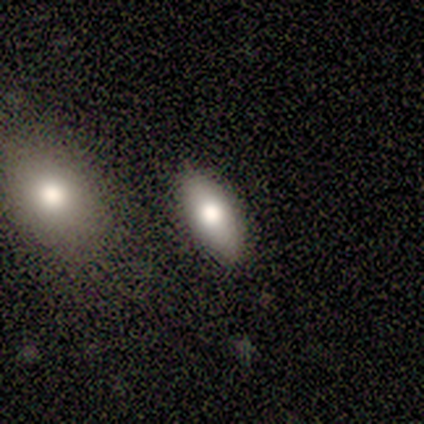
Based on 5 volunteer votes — Overall: smooth (100%). How rounded: in between (80%). Merging: none (60%; minor disturbance 20%).